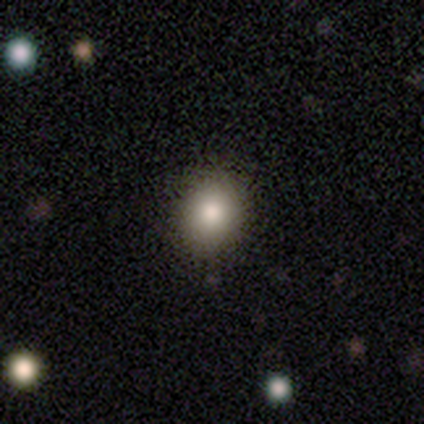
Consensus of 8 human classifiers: A smooth galaxy with no disk features (100%) that is round (62%).

Vote fractions:
- Smooth or featured? smooth: 100% / featured or disk: 0% / star or artifact: 0%
- How rounded? round: 62% / in between: 38% / cigar-shaped: 0%
- Merging? none: 88% / minor disturbance: 12% / major disturbance: 0% / merger: 0%